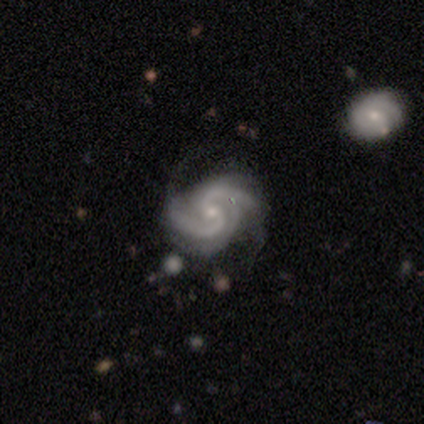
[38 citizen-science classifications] smooth-or-featured: featured or disk: 95% | smooth: 3% | star or artifact: 3%
  disk-edge-on: no: 100% | yes: 0%
    bar: no: 61% | weak: 22% | strong: 17%
    has-spiral-arms: yes: 97% | no: 3%
      spiral-winding: medium: 66% | tight: 20% | loose: 14%
      spiral-arm-count: 2: 77% | can't tell: 9% | 3: 6% | 4: 6% | more than 4: 3% | 1: 0%
    bulge-size: small: 81% | moderate: 19% | dominant: 0% | large: 0% | none: 0%
  merging: none: 51% | minor disturbance: 14% | major disturbance: 5% | merger: 5%